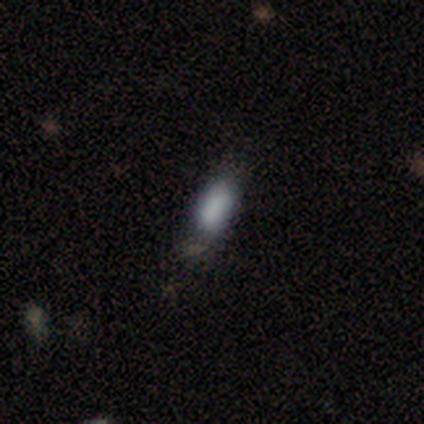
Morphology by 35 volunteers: type=smooth (80%); roundness=in between (86%); merging=none (68%).